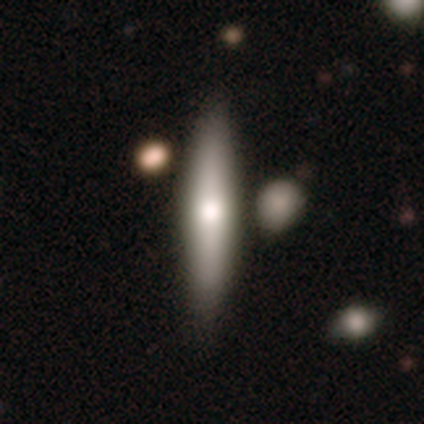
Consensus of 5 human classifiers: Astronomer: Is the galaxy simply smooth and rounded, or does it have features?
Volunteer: smooth — 60% (runner-up: featured or disk, 40%).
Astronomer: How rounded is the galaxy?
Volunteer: cigar-shaped — 100%.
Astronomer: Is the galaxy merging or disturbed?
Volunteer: none — 80%.